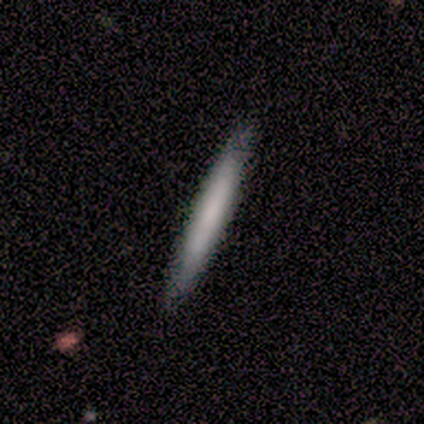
Smooth or featured?
  - featured or disk: 75% *
  - smooth: 25%
  - star or artifact: 0%
Edge-on disk?
  - no: 67% *
  - yes: 33%
Bar?
  - strong: 50% * (tied)
  - weak: 50% * (tied)
  - no: 0%
Spiral arms?
  - yes: 100% *
  - no: 0%
Spiral winding?
  - tight: 50% * (tied)
  - medium: 50% * (tied)
  - loose: 0%
Spiral arm count?
  - 2: 100% *
  - 1: 0%
  - 3: 0%
  - 4: 0%
  - more than 4: 0%
  - can't tell: 0%
Bulge size?
  - moderate: 50% * (tied)
  - small: 50% * (tied)
  - dominant: 0%
  - large: 0%
  - none: 0%
Merging?
  - none: 100% *
  - minor disturbance: 0%
  - major disturbance: 0%
  - merger: 0%